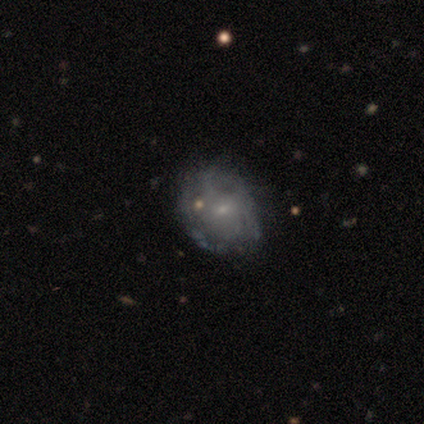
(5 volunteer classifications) Q: Smooth or featured?
A: featured or disk (80%); runner-up: smooth (20%)
Q: Edge-on disk?
A: no (100%)
Q: Bar?
A: no (75%); runner-up: weak (25%)
Q: Spiral arms?
A: yes (50%); tied with: no (50%)
Q: Spiral winding?
A: loose (100%)
Q: Spiral arm count?
A: 3 (50%); tied with: can't tell (50%)
Q: Bulge size?
A: small (75%); runner-up: none (25%)
Q: Merging?
A: none (100%)